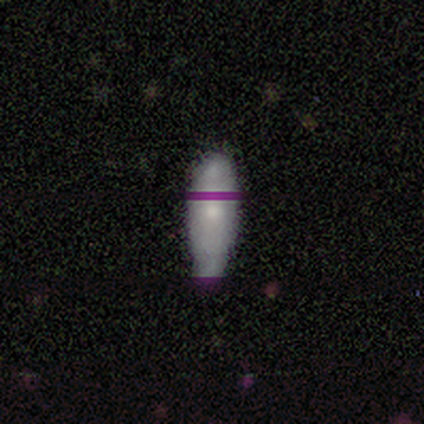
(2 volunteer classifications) This appears to be a smooth galaxy with no disk features (50%, tied with featured or disk) that is cigar-shaped (100%). Merging: none (50%, tied with major disturbance).